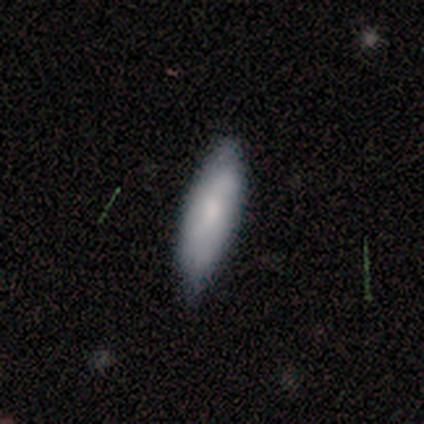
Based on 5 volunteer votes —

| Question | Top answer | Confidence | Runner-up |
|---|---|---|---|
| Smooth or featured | smooth | 60% | featured or disk (20%) |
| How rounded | in between | 67% | cigar-shaped (33%) |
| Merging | none | 50% | tied: minor disturbance (50%) |